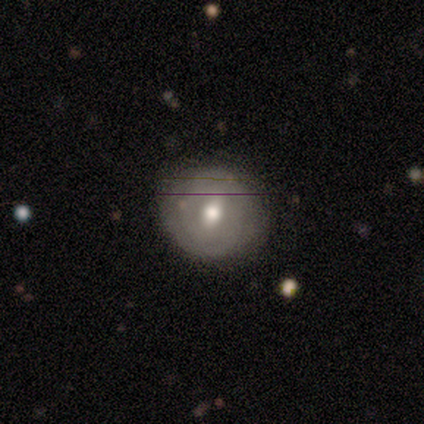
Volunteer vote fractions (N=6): Morphology: type=smooth (50%); roundness=round (67%); merging=none (80%).